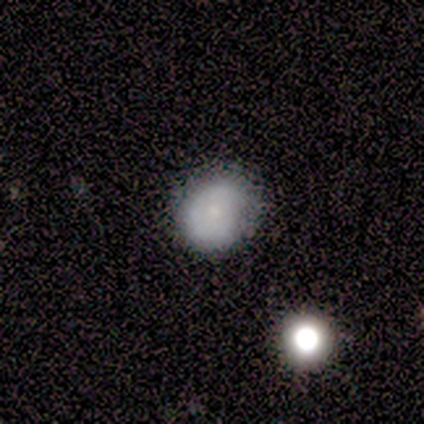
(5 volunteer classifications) smooth_or_featured: smooth (p=1.00)
how_rounded: round (p=0.80) [alt: in between p=0.20]
merging: none (p=0.80) [alt: minor disturbance p=0.20]